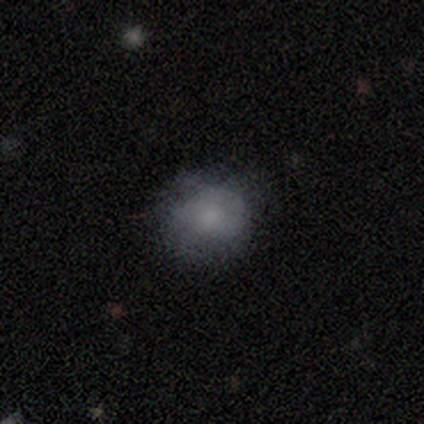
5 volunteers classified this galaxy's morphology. Smooth or featured? smooth (60%)
How rounded? round (67%)
Merging? none (50%, tied with minor disturbance)